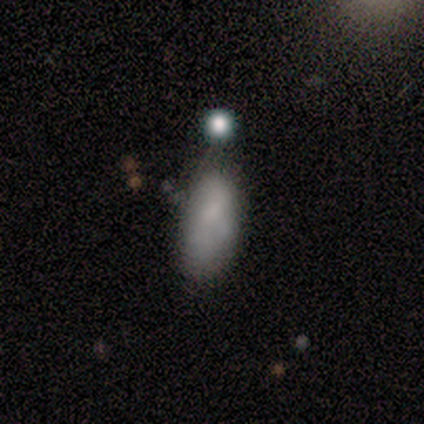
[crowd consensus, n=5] Smooth or featured?
  - featured or disk: 60% *
  - smooth: 40%
  - star or artifact: 0%
Edge-on disk?
  - no: 100% *
  - yes: 0%
Bar?
  - no: 100% *
  - strong: 0%
  - weak: 0%
Spiral arms?
  - no: 67% *
  - yes: 33%
Bulge size?
  - small: 100% *
  - dominant: 0%
  - large: 0%
  - moderate: 0%
  - none: 0%
Merging?
  - minor disturbance: 60% *
  - none: 40%
  - major disturbance: 0%
  - merger: 0%